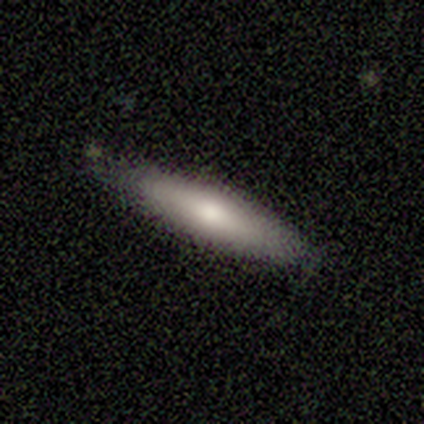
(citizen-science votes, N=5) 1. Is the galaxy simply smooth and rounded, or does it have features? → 60% smooth, 40% featured or disk, 0% star or artifact.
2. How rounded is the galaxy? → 100% cigar-shaped, 0% round, 0% in between.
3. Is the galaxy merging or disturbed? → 40% minor disturbance (tied), 40% major disturbance (tied), 20% none, 0% merger.